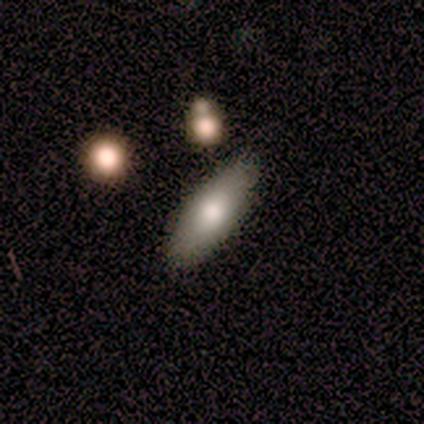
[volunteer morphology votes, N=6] Smooth or featured? 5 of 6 (83%) said smooth. How rounded? 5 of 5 (100%) said in between. Merging? 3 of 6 (50%, tied with minor disturbance) said none.